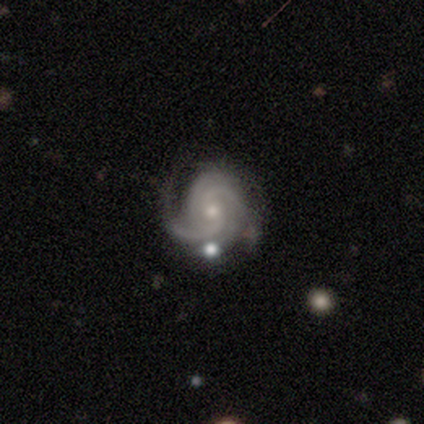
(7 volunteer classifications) smooth-or-featured: featured or disk: 100% | smooth: 0% | star or artifact: 0%
  disk-edge-on: no: 100% | yes: 0%
    bar: no: 71% | weak: 29% | strong: 0%
    has-spiral-arms: yes: 100% | no: 0%
      spiral-winding: tight: 71% | medium: 29% | loose: 0%
      spiral-arm-count: 3: 71% | 4: 14% | can't tell: 14% | 1: 0% | 2: 0% | more than 4: 0%
    bulge-size: small: 86% | moderate: 14% | dominant: 0% | large: 0% | none: 0%
  merging: none: 71% | minor disturbance: 29% | major disturbance: 0% | merger: 0%